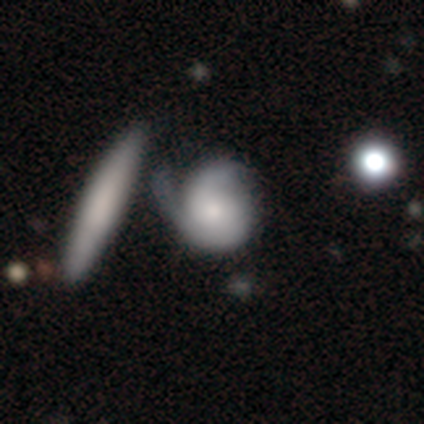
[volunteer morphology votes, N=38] Overall: featured or disk (68%; smooth 29%). Edge-on disk: no (100%). Bar: no (85%). Spiral arms: yes (88%). Spiral arm count: 2 (74%). Spiral winding: tight (39%; medium 35%). Bulge size: moderate (54%; small 19%). Merging: minor disturbance (22%, tied with major disturbance).